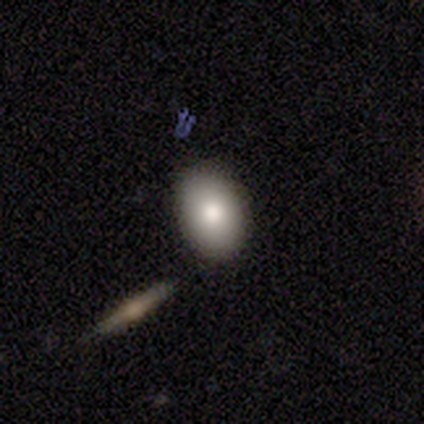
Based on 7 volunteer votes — smooth-or-featured: smooth: 57% | star or artifact: 29% | featured or disk: 14%
  how-rounded: in between: 100% | round: 0% | cigar-shaped: 0%
  merging: none: 80% | merger: 20% | minor disturbance: 0% | major disturbance: 0%